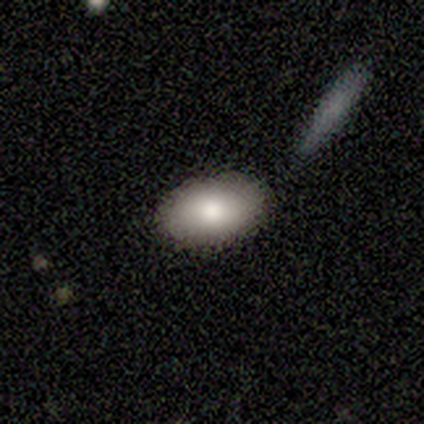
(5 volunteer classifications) smooth 100%, featured or disk 0%, star or artifact 0%. Down the decision tree: how rounded — in between (100%); merging — none (100%).